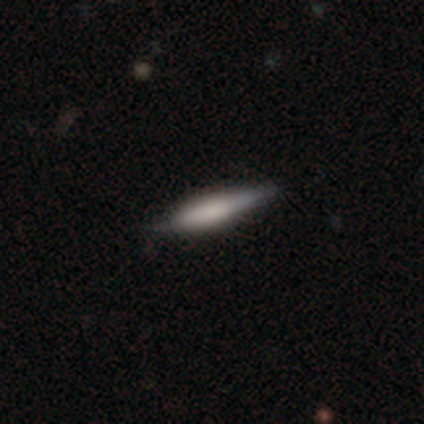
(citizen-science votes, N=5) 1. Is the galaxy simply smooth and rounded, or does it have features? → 80% smooth, 20% featured or disk, 0% star or artifact.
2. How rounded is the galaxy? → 75% cigar-shaped, 25% in between, 0% round.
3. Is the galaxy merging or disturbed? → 60% none, 40% minor disturbance, 0% major disturbance, 0% merger.